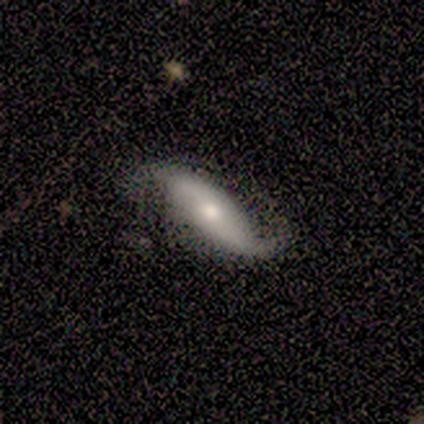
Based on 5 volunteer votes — Volunteers were most divided on "bulge size" (2-way tie): large: 40%, small: 40%, dominant: 20%, moderate: 0%, none: 0%. More confident: smooth or featured — featured or disk (100%); edge-on disk — no (100%); spiral arms — yes (100%); spiral winding — loose (80%); spiral arm count — 2 (80%); bar — strong (60%); merging — none (60%).